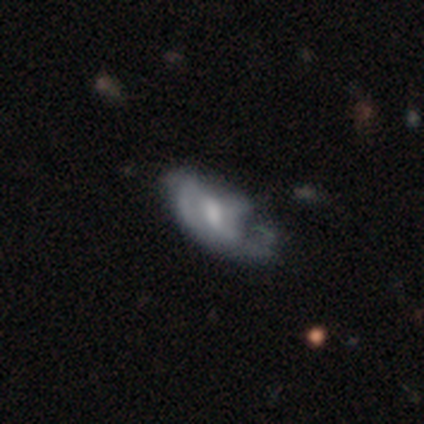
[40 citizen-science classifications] smooth-or-featured: featured or disk: 52% | smooth: 38% | star or artifact: 10%
  disk-edge-on: no: 90% | yes: 10%
    bar: weak: 53% | no: 32% | strong: 16%
    has-spiral-arms: yes: 58% | no: 42%
      spiral-winding: tight: 45% | medium: 36% | loose: 18%
      spiral-arm-count: can't tell: 55% | 2: 27% | 1: 18% | 3: 0% | 4: 0% | more than 4: 0%
    bulge-size: moderate: 53% | small: 26% | large: 11% | none: 11% | dominant: 0%
  merging: major disturbance: 53% | minor disturbance: 25% | none: 19% | merger: 3%